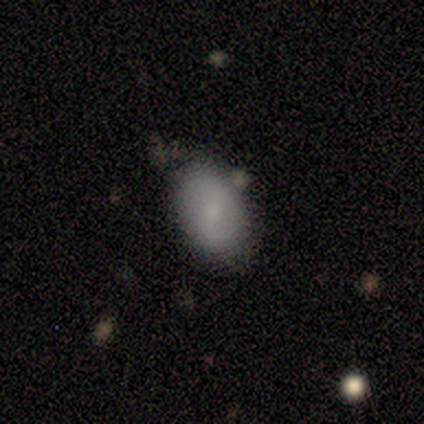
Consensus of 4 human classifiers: Overall: smooth (100%). How rounded: in between (75%). Merging: none (75%).